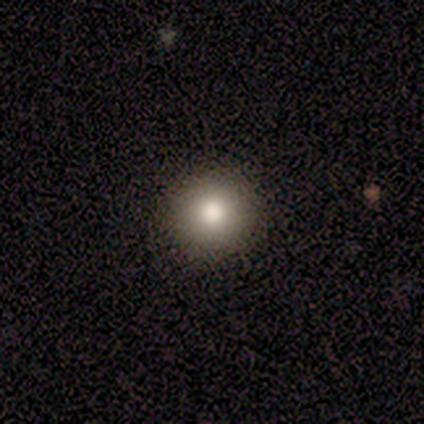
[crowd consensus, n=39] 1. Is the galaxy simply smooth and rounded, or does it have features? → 74% smooth, 13% featured or disk, 13% star or artifact.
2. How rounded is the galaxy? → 90% round, 10% in between, 0% cigar-shaped.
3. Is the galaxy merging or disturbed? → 59% none, 6% minor disturbance, 6% merger, 0% major disturbance.